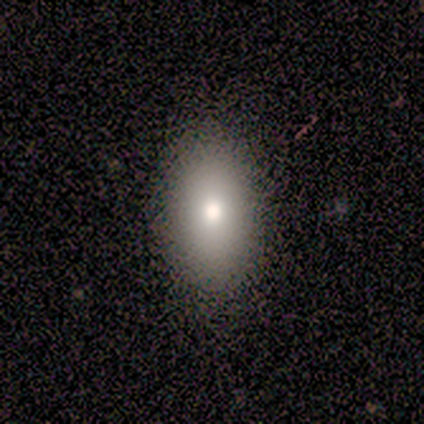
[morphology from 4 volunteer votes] smooth-or-featured: smooth: 50% | featured or disk: 25% | star or artifact: 25%
  how-rounded: round: 50% (tied) | in between: 50% (tied) | cigar-shaped: 0%
  merging: none: 67% | minor disturbance: 33% | major disturbance: 0% | merger: 0%